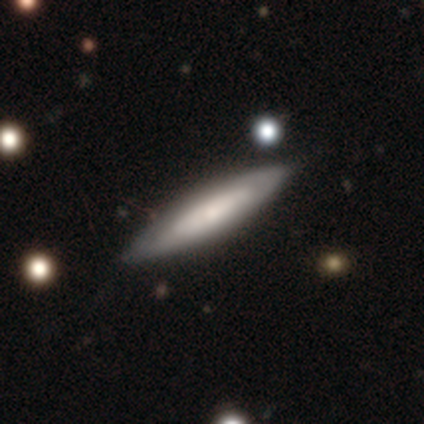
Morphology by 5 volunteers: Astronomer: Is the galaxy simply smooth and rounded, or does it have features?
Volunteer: featured or disk — 60% (runner-up: smooth, 40%).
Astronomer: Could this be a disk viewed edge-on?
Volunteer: yes — 67%.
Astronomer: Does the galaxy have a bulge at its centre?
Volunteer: rounded — 100%.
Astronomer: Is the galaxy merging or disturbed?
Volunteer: none — 100%.